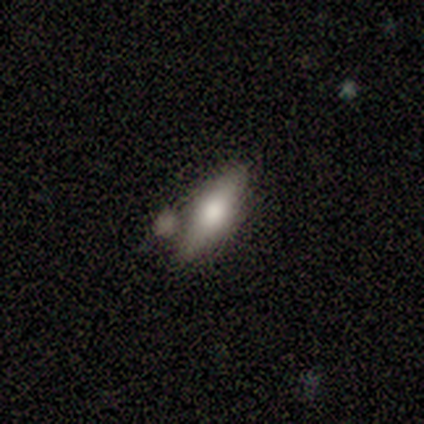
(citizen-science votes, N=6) smooth 67%, featured or disk 17%, star or artifact 17%. Down the decision tree: how rounded — in between (50%, tied with cigar-shaped); merging — none (60%).